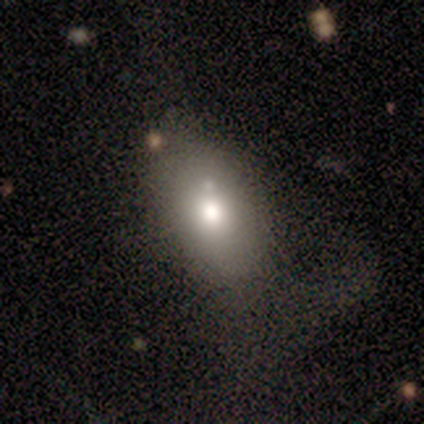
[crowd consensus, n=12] smooth-or-featured: smooth: 83% | featured or disk: 17% | star or artifact: 0%
  how-rounded: in between: 100% | round: 0% | cigar-shaped: 0%
  merging: none: 58% | major disturbance: 25% | minor disturbance: 8% | merger: 8%